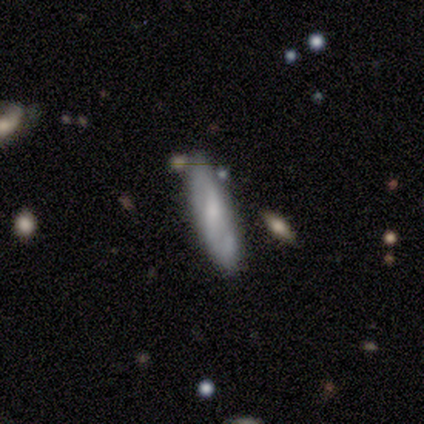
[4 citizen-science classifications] This appears to be a featured or disk galaxy (75%) with a weak bar (100%), 2 (100%) medium (100%) spiral arms (50%, tied with no) and a small central bulge (50%, tied with none). Merging: none (50%).